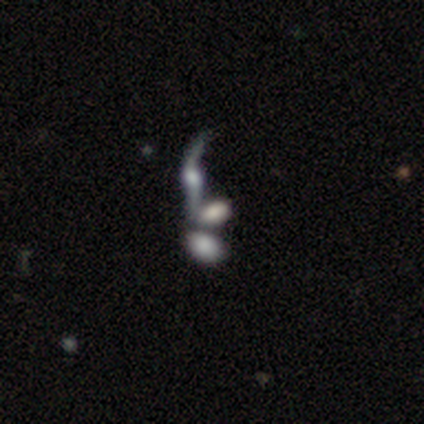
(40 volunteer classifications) Smooth or featured?
  - featured or disk: 57% *
  - smooth: 35%
  - star or artifact: 8%
Edge-on disk?
  - no: 78% *
  - yes: 22%
Bar?
  - no: 67% *
  - weak: 33%
  - strong: 0%
Spiral arms?
  - yes: 83% *
  - no: 17%
Spiral winding?
  - loose: 87% *
  - tight: 13%
  - medium: 0%
Spiral arm count?
  - 2: 80% *
  - can't tell: 13%
  - 1: 7%
  - 3: 0%
  - 4: 0%
  - more than 4: 0%
Bulge size?
  - moderate: 44% *
  - large: 28%
  - small: 11%
  - none: 11%
  - dominant: 6%
Merging?
  - merger: 68% *
  - none: 22%
  - major disturbance: 8%
  - minor disturbance: 3%